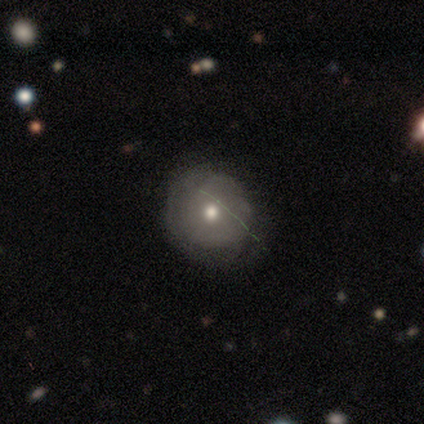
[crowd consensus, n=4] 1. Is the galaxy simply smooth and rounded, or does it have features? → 100% smooth, 0% featured or disk, 0% star or artifact.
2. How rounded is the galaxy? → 100% round, 0% in between, 0% cigar-shaped.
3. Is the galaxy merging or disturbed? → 75% none, 25% minor disturbance, 0% major disturbance, 0% merger.